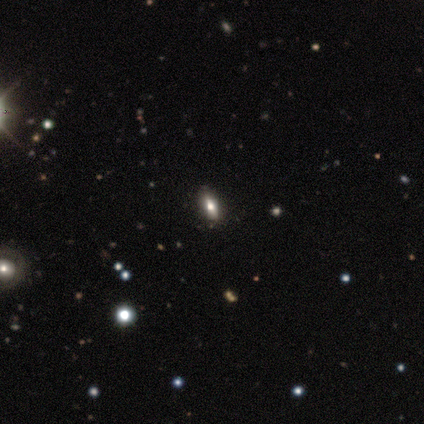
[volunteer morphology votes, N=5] Smooth or featured? 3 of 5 (60%) said star or artifact.